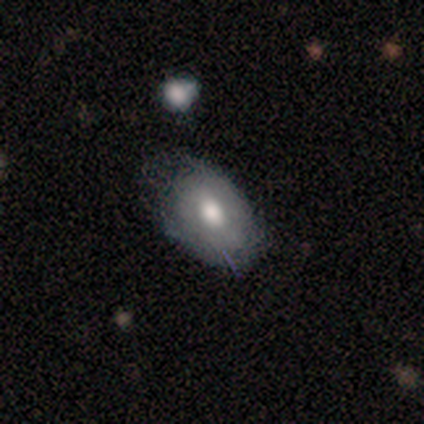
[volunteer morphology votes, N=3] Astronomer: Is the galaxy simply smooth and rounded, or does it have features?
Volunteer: smooth — 100%.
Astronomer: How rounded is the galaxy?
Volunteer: in between — 100%.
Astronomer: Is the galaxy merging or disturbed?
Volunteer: none — 67%.